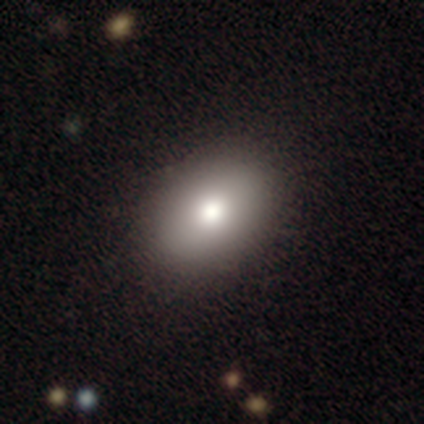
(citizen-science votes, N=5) This is clearly a smooth galaxy (100%). How rounded: clearly in between (100%). Merging: clearly none (100%).